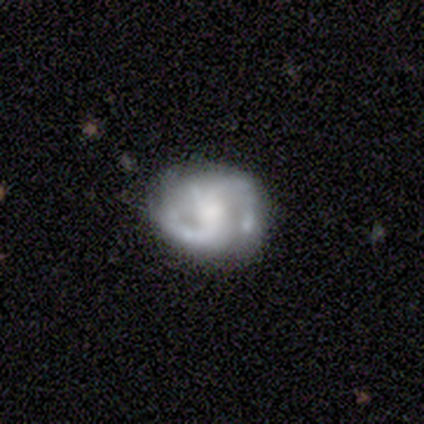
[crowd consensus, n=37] Smooth or featured?
  - featured or disk: 68% *
  - smooth: 22%
  - star or artifact: 11%
Edge-on disk?
  - no: 92% *
  - yes: 8%
Bar?
  - no: 74% *
  - strong: 13%
  - weak: 13%
Spiral arms?
  - yes: 96% *
  - no: 4%
Spiral winding?
  - tight: 50% *
  - medium: 45%
  - loose: 5%
Spiral arm count?
  - 2: 77% *
  - can't tell: 18%
  - 3: 5%
  - 1: 0%
  - 4: 0%
  - more than 4: 0%
Bulge size?
  - large: 30% * (tied)
  - small: 30% * (tied)
  - moderate: 22%
  - none: 13%
  - dominant: 4%
Merging?
  - none: 73% *
  - minor disturbance: 15%
  - major disturbance: 6%
  - merger: 6%